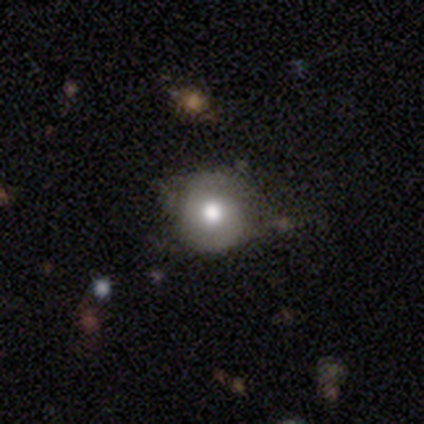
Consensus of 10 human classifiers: Smooth or featured? 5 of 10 (50%) said featured or disk. Edge-on disk? 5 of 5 (100%) said no. Bar? 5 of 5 (100%) said no. Spiral arms? 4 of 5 (80%) said yes. Spiral winding? 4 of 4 (100%) said tight. Spiral arm count? 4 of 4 (100%) said 2. Bulge size? 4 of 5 (80%) said moderate. Merging? 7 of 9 (78%) said none.